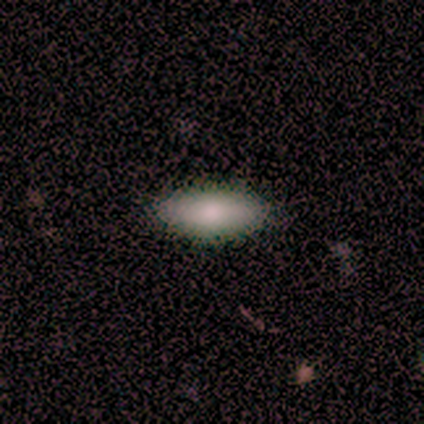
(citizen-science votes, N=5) Morphology: type=smooth (60%); roundness=in between (67%); merging=none (100%).